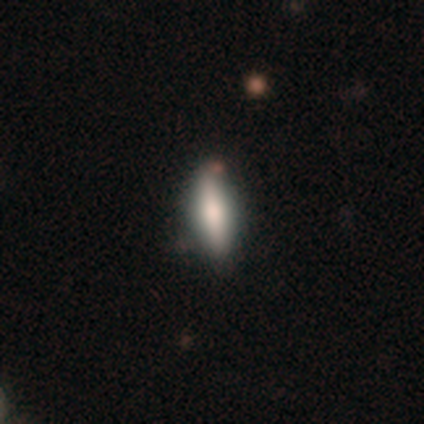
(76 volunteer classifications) smooth 71%, featured or disk 26%, star or artifact 3%. Down the decision tree: how rounded — in between (52%); merging — none (46%).